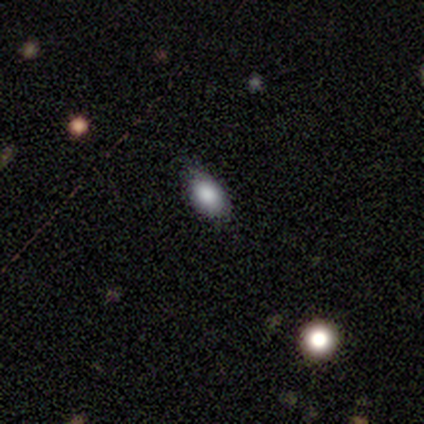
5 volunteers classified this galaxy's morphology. A smooth galaxy with no disk features (100%) that is in between round and cigar-shaped (100%).

Vote fractions:
- Smooth or featured? smooth: 100% / featured or disk: 0% / star or artifact: 0%
- How rounded? in between: 100% / round: 0% / cigar-shaped: 0%
- Merging? none: 80% / minor disturbance: 20% / major disturbance: 0% / merger: 0%